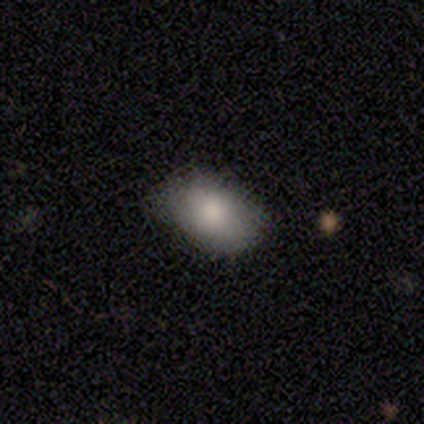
Smooth or featured?
  - smooth: 100% *
  - featured or disk: 0%
  - star or artifact: 0%
How rounded?
  - in between: 100% *
  - round: 0%
  - cigar-shaped: 0%
Merging?
  - none: 83% *
  - minor disturbance: 17%
  - major disturbance: 0%
  - merger: 0%